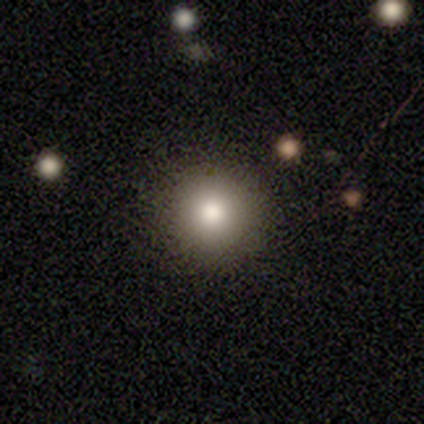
Q: Smooth or featured?
A: smooth (97%); runner-up: star or artifact (3%)
Q: How rounded?
A: round (97%); runner-up: in between (3%)
Q: Merging?
A: none (78%); runner-up: minor disturbance (3%)